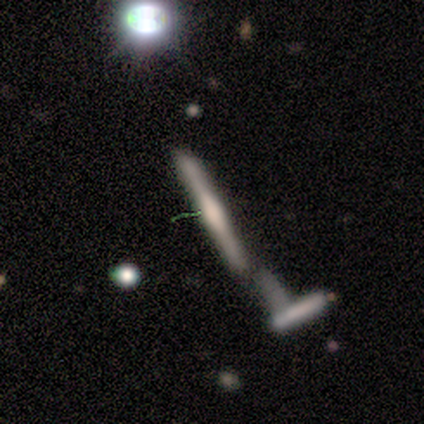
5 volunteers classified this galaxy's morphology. This appears to be a featured or disk galaxy (80%) viewed edge-on (100%) with a boxy central bulge (75%). Merging: merger (40%).